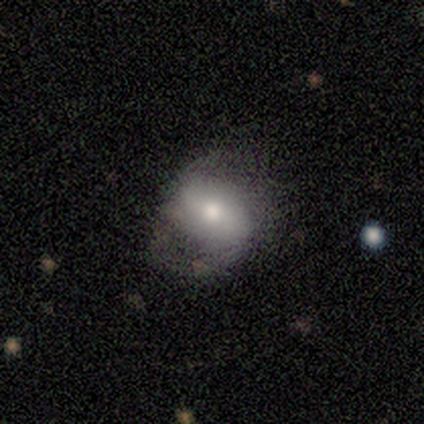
Overall: featured or disk (62%; smooth 38%). Edge-on disk: no (100%). Bar: no (60%; weak 40%). Spiral arms: yes (60%; no 40%). Spiral arm count: 2 (100%). Spiral winding: medium (67%; tight 33%). Bulge size: moderate (60%; small 40%). Merging: none (50%; minor disturbance 38%).